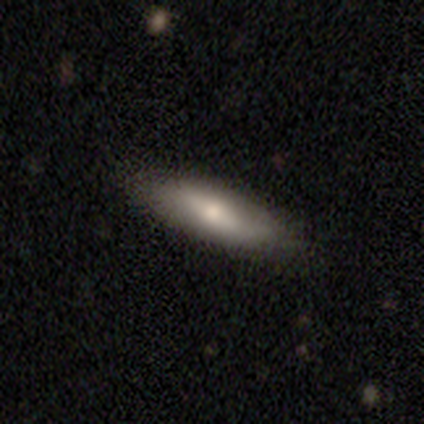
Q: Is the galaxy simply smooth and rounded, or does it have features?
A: smooth — 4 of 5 (80%).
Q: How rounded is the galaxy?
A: cigar-shaped — 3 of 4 (75%).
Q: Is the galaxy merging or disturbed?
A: none — 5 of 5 (100%).